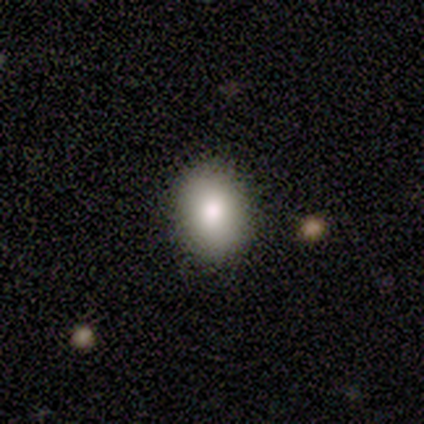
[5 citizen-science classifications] Smooth or featured? 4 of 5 (80%) said smooth. How rounded? 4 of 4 (100%) said in between. Merging? 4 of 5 (80%) said none.